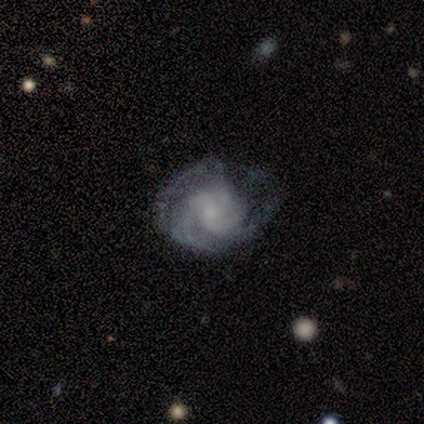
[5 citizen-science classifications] Smooth or featured? 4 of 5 (80%) said featured or disk. Edge-on disk? 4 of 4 (100%) said no. Bar? 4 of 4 (100%) said no. Spiral arms? 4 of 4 (100%) said yes. Spiral winding? 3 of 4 (75%) said medium. Spiral arm count? 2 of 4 (50%) said 2. Bulge size? 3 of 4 (75%) said small. Merging? 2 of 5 (40%, tied with minor disturbance) said none.